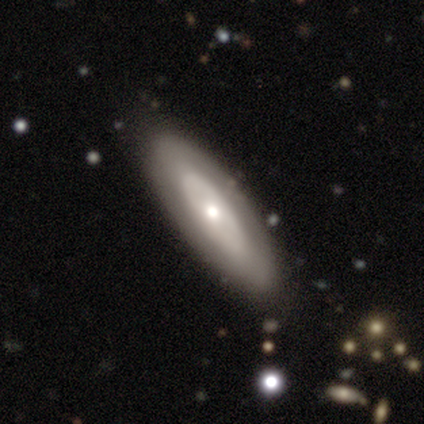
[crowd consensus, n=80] A featured or disk galaxy (57%) with no bar (85%), no spiral arms (90%) and a moderate central bulge (56%).

Vote fractions:
- Smooth or featured? featured or disk: 57% / smooth: 38% / star or artifact: 5%
- Edge-on disk? no: 89% / yes: 11%
- Bar? no: 85% / weak: 10% / strong: 5%
- Spiral arms? no: 90% / yes: 10%
- Bulge size? moderate: 56% / small: 34% / large: 7% / dominant: 2% / none: 0%
- Merging? none: 41% / minor disturbance: 7% / merger: 5% / major disturbance: 0%